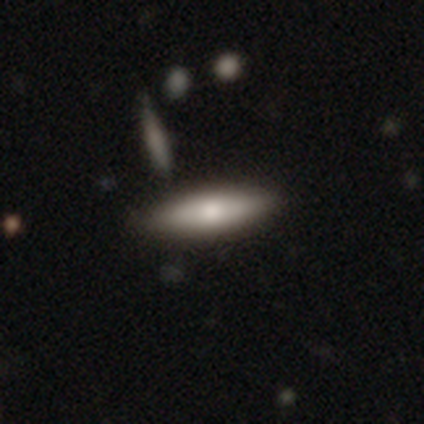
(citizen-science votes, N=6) smooth 50% (tied), featured or disk 50% (tied), star or artifact 0%. Down the decision tree: how rounded — in between (67%); merging — none (83%).